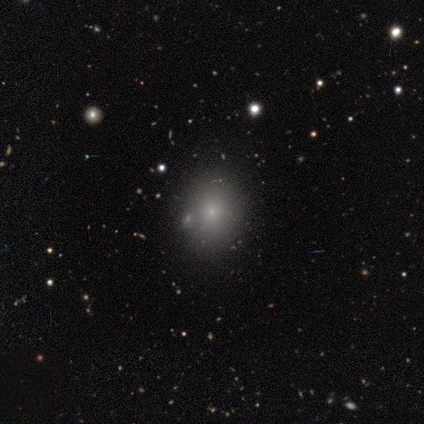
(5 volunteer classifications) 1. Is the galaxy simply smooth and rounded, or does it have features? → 80% smooth, 20% star or artifact, 0% featured or disk.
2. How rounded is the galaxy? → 75% in between, 25% round, 0% cigar-shaped.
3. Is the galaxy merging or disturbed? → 100% none, 0% minor disturbance, 0% major disturbance, 0% merger.